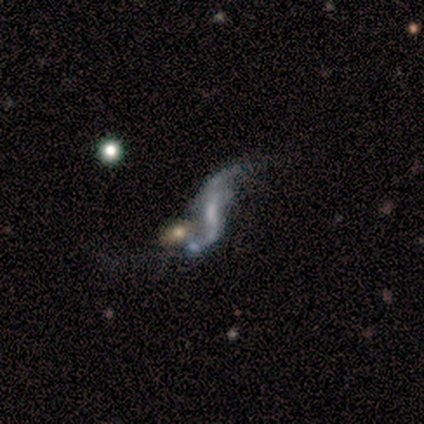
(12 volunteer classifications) Overall: featured or disk (83%). Edge-on disk: no (100%). Bar: no (40%; strong 30%). Spiral arms: yes (70%; no 30%). Spiral arm count: 2 (100%). Spiral winding: loose (100%). Bulge size: small (50%; none 30%). Merging: none (40%; merger 30%).